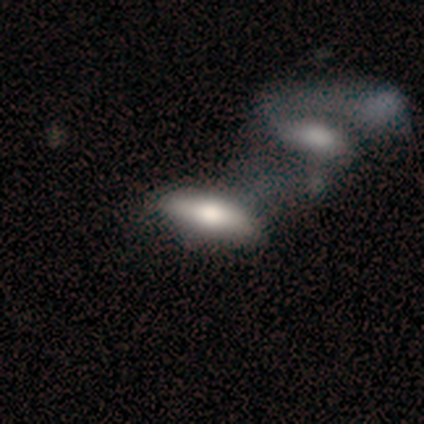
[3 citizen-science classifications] A smooth galaxy with no disk features (67%) that is in between round and cigar-shaped (50%, tied with cigar-shaped).

Vote fractions:
- Smooth or featured? smooth: 67% / featured or disk: 33% / star or artifact: 0%
- How rounded? in between: 50% (tied) / cigar-shaped: 50% (tied) / round: 0%
- Merging? none: 33% (tied) / major disturbance: 33% (tied) / merger: 33% (tied) / minor disturbance: 0%